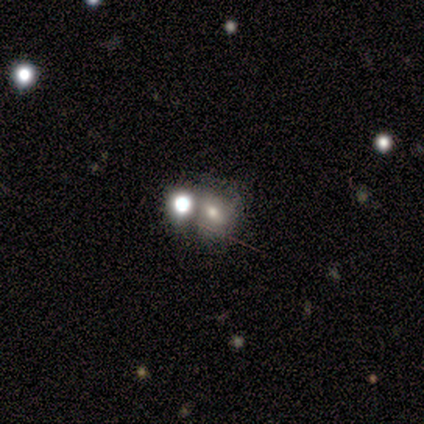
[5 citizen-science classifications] Smooth or featured? 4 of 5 (80%) said smooth. How rounded? 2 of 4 (50%, tied with in between) said round. Merging? 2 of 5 (40%, tied with merger) said none.